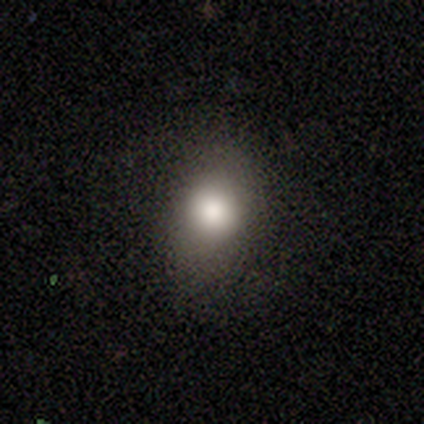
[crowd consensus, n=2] A smooth galaxy with no disk features (100%) that is round (50%, tied with in between).

Vote fractions:
- Smooth or featured? smooth: 100% / featured or disk: 0% / star or artifact: 0%
- How rounded? round: 50% (tied) / in between: 50% (tied) / cigar-shaped: 0%
- Merging? none: 50% (tied) / major disturbance: 50% (tied) / minor disturbance: 0% / merger: 0%